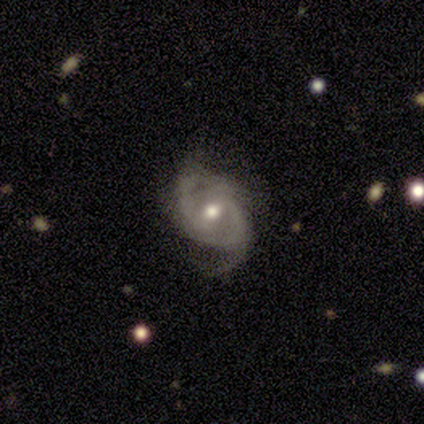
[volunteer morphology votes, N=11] smooth-or-featured: featured or disk: 91% | smooth: 9% | star or artifact: 0%
  disk-edge-on: no: 100% | yes: 0%
    bar: no: 60% | weak: 40% | strong: 0%
    has-spiral-arms: yes: 100% | no: 0%
      spiral-winding: tight: 50% | medium: 30% | loose: 20%
      spiral-arm-count: 2: 60% | can't tell: 20% | 1: 10% | 3: 10% | 4: 0% | more than 4: 0%
    bulge-size: moderate: 90% | small: 10% | dominant: 0% | large: 0% | none: 0%
  merging: none: 45% | minor disturbance: 36% | major disturbance: 18% | merger: 0%